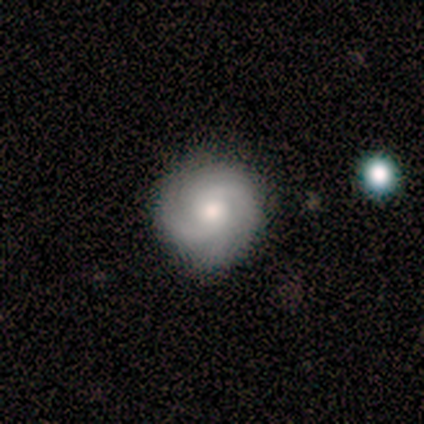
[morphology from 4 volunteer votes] smooth 50%, featured or disk 25%, star or artifact 25%. Down the decision tree: how rounded — round (100%); merging — none (67%).